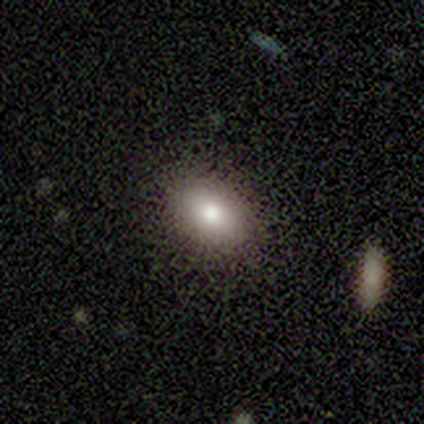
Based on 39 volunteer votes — smooth-or-featured: smooth: 79% | star or artifact: 13% | featured or disk: 8%
  how-rounded: in between: 84% | round: 16% | cigar-shaped: 0%
  merging: none: 82% | minor disturbance: 12% | major disturbance: 6% | merger: 0%